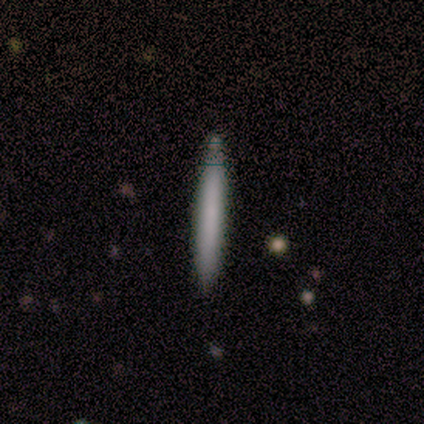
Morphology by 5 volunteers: Smooth or featured: smooth — 100%
How rounded: cigar-shaped — 100%
Merging: none — 80% (minor disturbance — 20%)